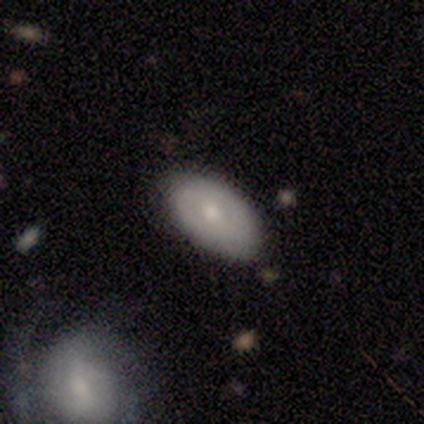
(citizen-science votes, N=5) Smooth or featured: smooth — 60% (featured or disk — 40%)
How rounded: in between — 100%
Merging: none — 80% (minor disturbance — 20%)